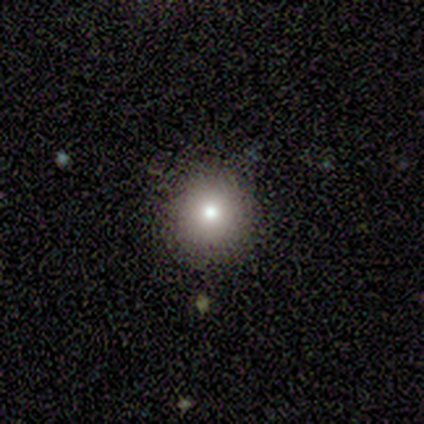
smooth 100%, featured or disk 0%, star or artifact 0%. Down the decision tree: how rounded — round (100%); merging — none (100%).